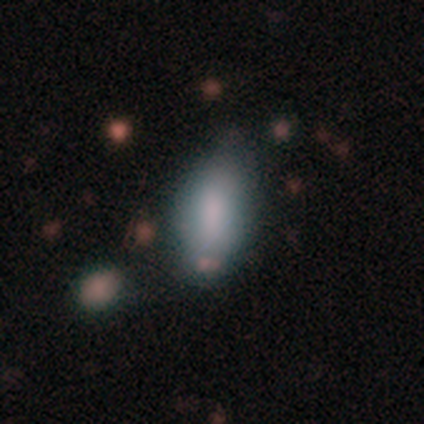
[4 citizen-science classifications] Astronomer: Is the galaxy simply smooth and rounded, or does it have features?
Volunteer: smooth — 50%, tied with featured or disk at 50%.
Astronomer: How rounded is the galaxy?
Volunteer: in between — 100%.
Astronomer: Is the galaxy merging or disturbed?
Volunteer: none — 50%.